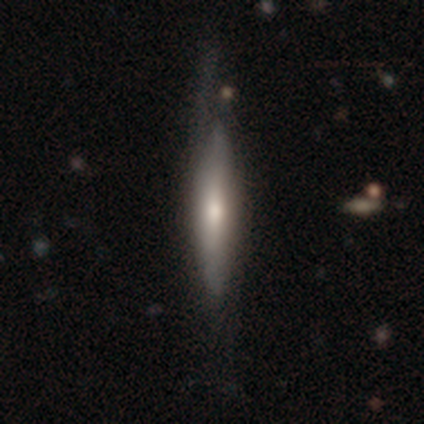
This is possibly a featured or disk galaxy (53%). It is clearly viewed edge-on (84%). Edge-on bulge: likely rounded (64%). Merging: marginally none (31%).